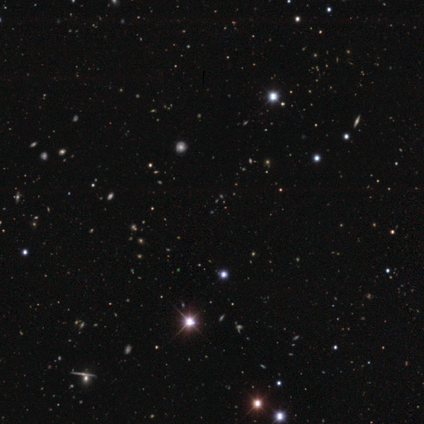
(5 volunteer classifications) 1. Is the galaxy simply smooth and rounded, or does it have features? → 80% star or artifact, 20% featured or disk, 0% smooth.